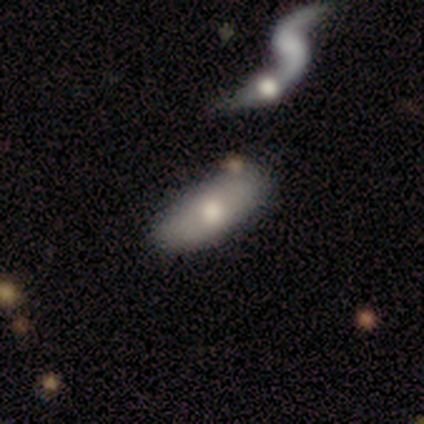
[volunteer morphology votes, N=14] smooth-or-featured: smooth: 64% | star or artifact: 21% | featured or disk: 14%
  how-rounded: in between: 67% | cigar-shaped: 22% | round: 11%
  merging: none: 64% | minor disturbance: 36% | major disturbance: 0% | merger: 0%